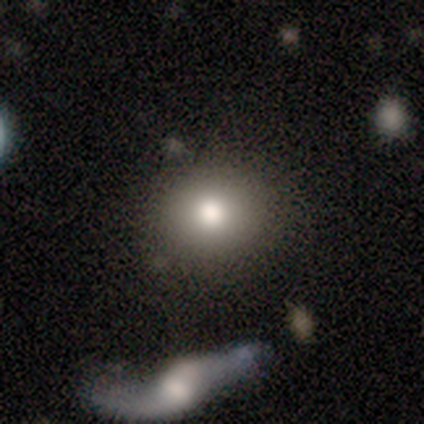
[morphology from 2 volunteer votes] smooth 100%, featured or disk 0%, star or artifact 0%. Down the decision tree: how rounded — round (50%, tied with in between); merging — none (100%).